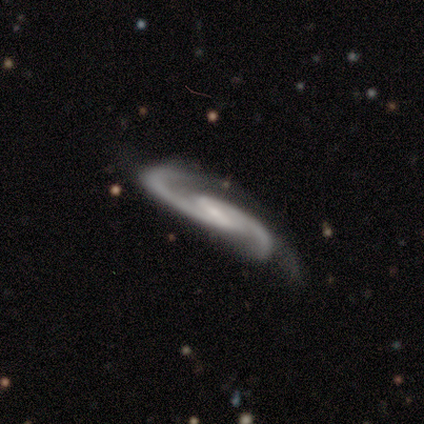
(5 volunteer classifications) featured or disk 100%, smooth 0%, star or artifact 0%. Down the decision tree: edge-on disk — no (80%); bar — strong (50%, tied with weak); spiral arms — yes (100%); spiral arm count — 2 (75%); spiral winding — medium (75%); bulge size — small (75%); merging — none (100%).